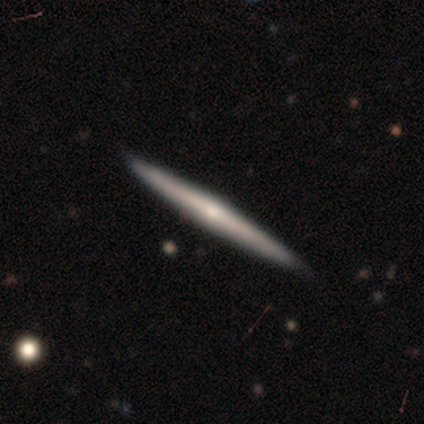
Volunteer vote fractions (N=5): This is clearly a featured or disk galaxy (80%). It is clearly viewed edge-on (100%). Edge-on bulge: likely rounded (75%). Merging: clearly none (80%).